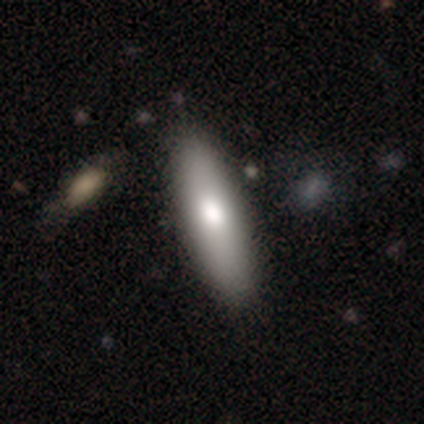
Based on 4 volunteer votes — Morphology: type=smooth (100%); roundness=cigar-shaped (75%); merging=none (100%).